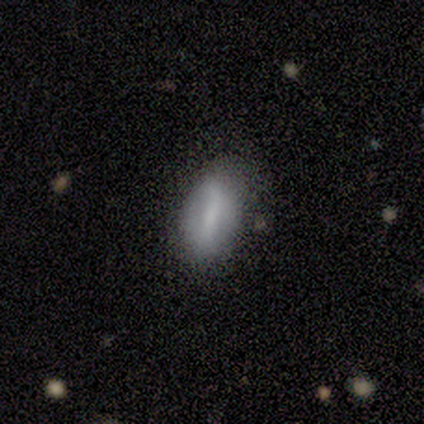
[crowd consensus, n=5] Smooth or featured?
  - smooth: 80% *
  - featured or disk: 20%
  - star or artifact: 0%
How rounded?
  - in between: 100% *
  - round: 0%
  - cigar-shaped: 0%
Merging?
  - none: 80% *
  - minor disturbance: 20%
  - major disturbance: 0%
  - merger: 0%